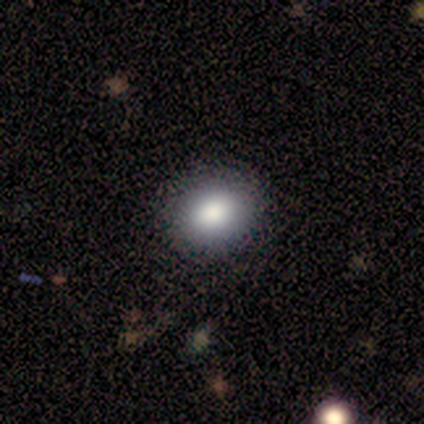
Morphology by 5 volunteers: Smooth or featured? 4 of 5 (80%) said smooth. How rounded? 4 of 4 (100%) said in between. Merging? 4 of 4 (100%) said none.